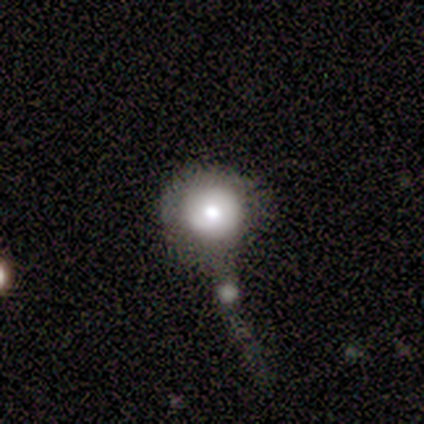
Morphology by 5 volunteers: This appears to be a smooth galaxy with no disk features (80%) that is round (100%). Merging: minor disturbance (40%).